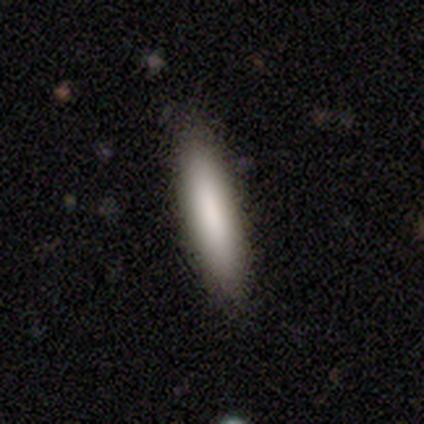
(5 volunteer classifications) A smooth galaxy with no disk features (60%) that is cigar-shaped (100%). Merging: none (75%).